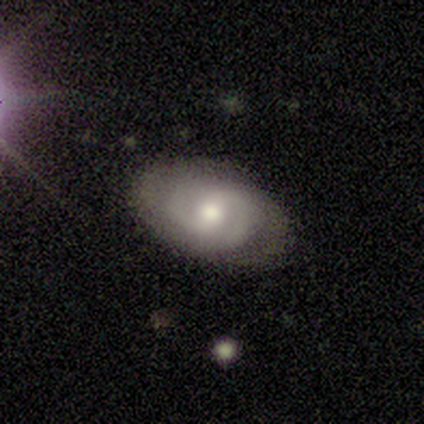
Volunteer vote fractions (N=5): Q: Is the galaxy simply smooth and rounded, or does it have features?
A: smooth — 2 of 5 (40%, tied with featured or disk).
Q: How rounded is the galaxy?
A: round — 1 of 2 (50%, tied with in between).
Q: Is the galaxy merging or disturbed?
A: none — 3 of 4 (75%).